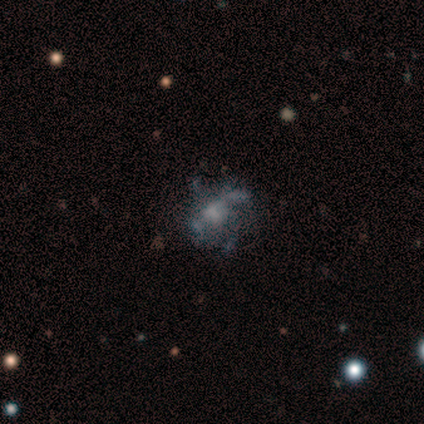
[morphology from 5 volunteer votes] Smooth or featured?
  - featured or disk: 60% *
  - smooth: 40%
  - star or artifact: 0%
Edge-on disk?
  - no: 100% *
  - yes: 0%
Bar?
  - no: 100% *
  - strong: 0%
  - weak: 0%
Spiral arms?
  - yes: 67% *
  - no: 33%
Spiral winding?
  - medium: 50% * (tied)
  - loose: 50% * (tied)
  - tight: 0%
Spiral arm count?
  - can't tell: 100% *
  - 1: 0%
  - 2: 0%
  - 3: 0%
  - 4: 0%
  - more than 4: 0%
Bulge size?
  - moderate: 67% *
  - none: 33%
  - dominant: 0%
  - large: 0%
  - small: 0%
Merging?
  - none: 40% * (tied)
  - minor disturbance: 40% * (tied)
  - major disturbance: 20%
  - merger: 0%